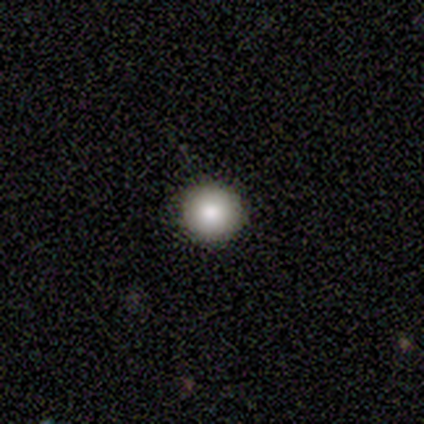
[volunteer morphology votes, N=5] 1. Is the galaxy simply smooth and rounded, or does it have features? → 80% smooth, 20% featured or disk, 0% star or artifact.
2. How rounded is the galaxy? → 100% round, 0% in between, 0% cigar-shaped.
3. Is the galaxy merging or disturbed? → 100% none, 0% minor disturbance, 0% major disturbance, 0% merger.